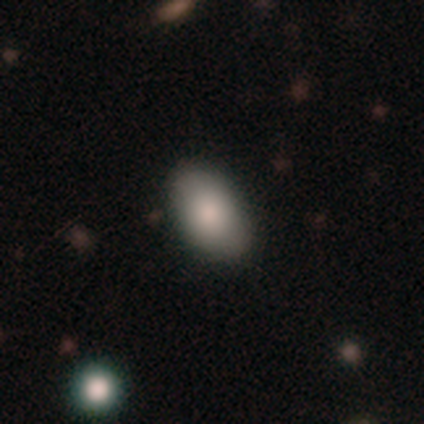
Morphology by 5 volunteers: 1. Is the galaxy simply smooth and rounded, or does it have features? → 100% smooth, 0% featured or disk, 0% star or artifact.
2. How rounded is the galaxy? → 100% in between, 0% round, 0% cigar-shaped.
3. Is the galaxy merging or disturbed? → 100% none, 0% minor disturbance, 0% major disturbance, 0% merger.